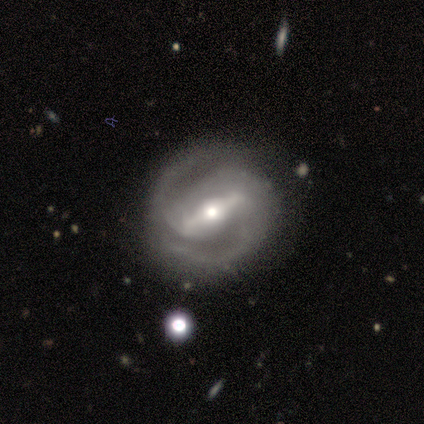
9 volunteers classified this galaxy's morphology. A featured or disk galaxy (89%) with a strong bar (88%), 2 (88%) tight (50%) spiral arms (100%) and a moderate central bulge (62%). Merging: none (78%).